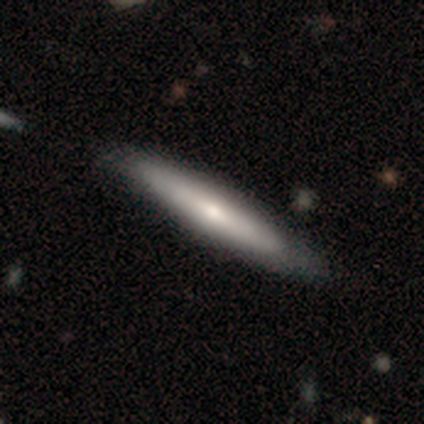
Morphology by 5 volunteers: Volunteers were most divided on "edge-on bulge": rounded: 67%, none: 33%, boxy: 0%. More confident: smooth or featured — featured or disk (80%); edge-on disk — yes (75%); merging — none (60%).